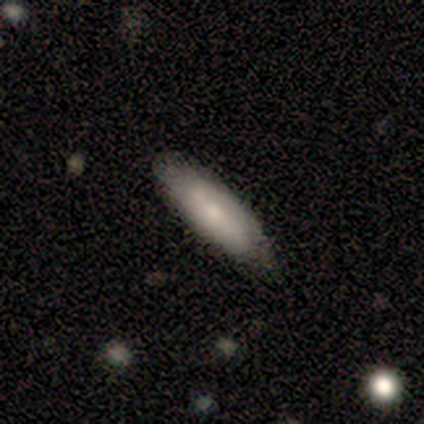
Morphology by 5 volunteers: A featured or disk galaxy (80%) viewed edge-on (50%, tied with no) with a rounded central bulge (100%).

Vote fractions:
- Smooth or featured? featured or disk: 80% / smooth: 20% / star or artifact: 0%
- Edge-on disk? yes: 50% (tied) / no: 50% (tied)
- Edge-on bulge? rounded: 100% / boxy: 0% / none: 0%
- Merging? none: 40% (tied) / minor disturbance: 40% (tied) / major disturbance: 20% / merger: 0%